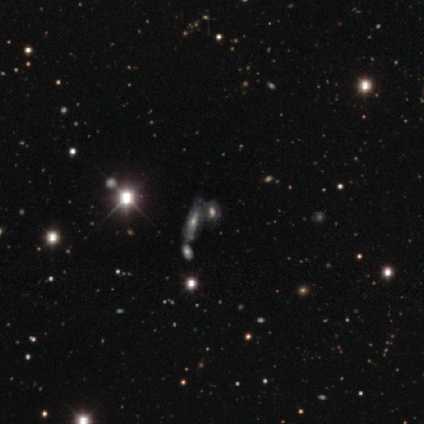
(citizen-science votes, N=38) A featured or disk galaxy (42%, tied with star or artifact) with no bar (69%), tight (78%) spiral arms (69%) and a moderate central bulge (62%).

Vote fractions:
- Smooth or featured? featured or disk: 42% (tied) / star or artifact: 42% (tied) / smooth: 16%
- Edge-on disk? no: 81% / yes: 19%
- Bar? no: 69% / strong: 23% / weak: 8%
- Spiral arms? yes: 69% / no: 31%
- Spiral winding? tight: 78% / medium: 22% / loose: 0%
- Spiral arm count? can't tell: 78% / 2: 11% / 3: 11% / 1: 0% / 4: 0% / more than 4: 0%
- Bulge size? moderate: 62% / small: 23% / large: 8% / none: 8% / dominant: 0%
- Merging? merger: 55% / none: 27% / minor disturbance: 18% / major disturbance: 0%